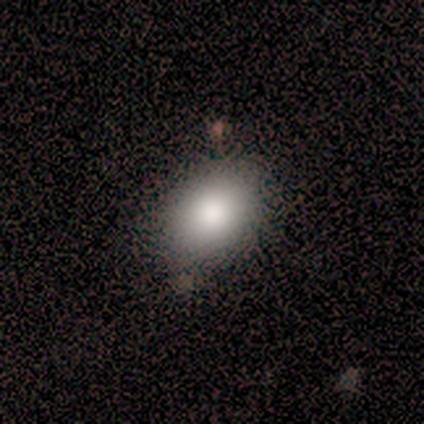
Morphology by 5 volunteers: Smooth or featured?
  - smooth: 80% *
  - featured or disk: 20%
  - star or artifact: 0%
How rounded?
  - in between: 75% *
  - round: 25%
  - cigar-shaped: 0%
Merging?
  - none: 60% *
  - minor disturbance: 40%
  - major disturbance: 0%
  - merger: 0%